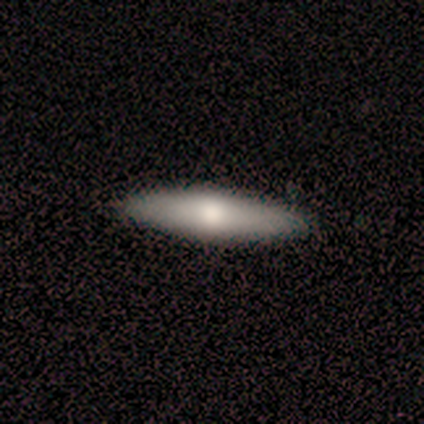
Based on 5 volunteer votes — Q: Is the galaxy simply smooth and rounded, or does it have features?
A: smooth — 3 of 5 (60%).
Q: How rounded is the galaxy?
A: cigar-shaped — 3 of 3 (100%).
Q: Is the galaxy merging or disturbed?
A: none — 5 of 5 (100%).